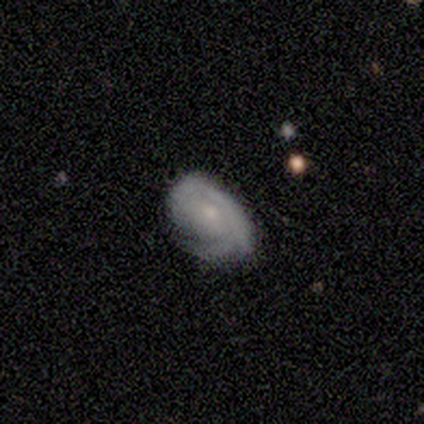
Smooth or featured: featured or disk — 60% (smooth — 40%)
Edge-on disk: no — 100%
Bar: no — 67% (weak — 33%)
Spiral arms: yes — 100%
Spiral winding: medium — 67% (tight — 33%)
Spiral arm count: can't tell — 67% (3 — 33%)
Bulge size: small — 67% (none — 33%)
Merging: minor disturbance — 60% (none — 40%)